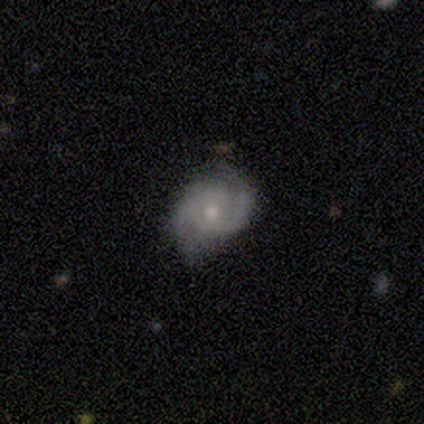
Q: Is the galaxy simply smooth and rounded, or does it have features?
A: featured or disk — 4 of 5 (80%).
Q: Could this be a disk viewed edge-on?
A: no — 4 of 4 (100%).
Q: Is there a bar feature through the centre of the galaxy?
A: no — 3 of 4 (75%).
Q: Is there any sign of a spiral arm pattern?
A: yes — 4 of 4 (100%).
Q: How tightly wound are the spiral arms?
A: medium — 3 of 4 (75%).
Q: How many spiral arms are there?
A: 2 — 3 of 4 (75%).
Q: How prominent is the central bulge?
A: moderate — 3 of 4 (75%).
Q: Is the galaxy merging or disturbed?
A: none — 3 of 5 (60%).